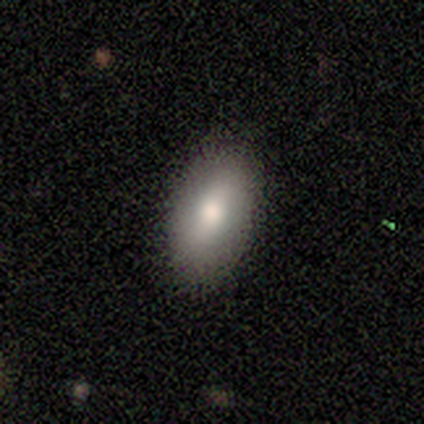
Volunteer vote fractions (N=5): smooth-or-featured: smooth: 60% | featured or disk: 40% | star or artifact: 0%
  how-rounded: in between: 100% | round: 0% | cigar-shaped: 0%
  merging: none: 80% | minor disturbance: 20% | major disturbance: 0% | merger: 0%